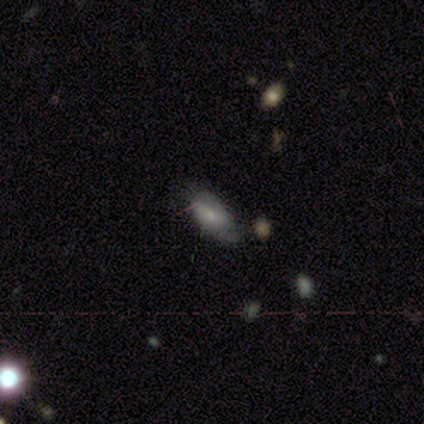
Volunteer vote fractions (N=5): smooth_or_featured: smooth (p=0.60) [alt: featured or disk p=0.20]
how_rounded: in between (p=0.67) [alt: cigar-shaped p=0.33]
merging: none (p=0.50) [tied with: minor disturbance p=0.50]